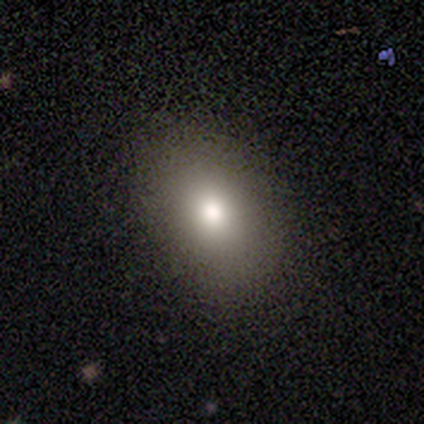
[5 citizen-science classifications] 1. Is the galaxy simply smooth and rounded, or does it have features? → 100% smooth, 0% featured or disk, 0% star or artifact.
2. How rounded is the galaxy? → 80% in between, 20% round, 0% cigar-shaped.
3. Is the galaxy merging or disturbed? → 60% none, 20% minor disturbance, 20% major disturbance, 0% merger.